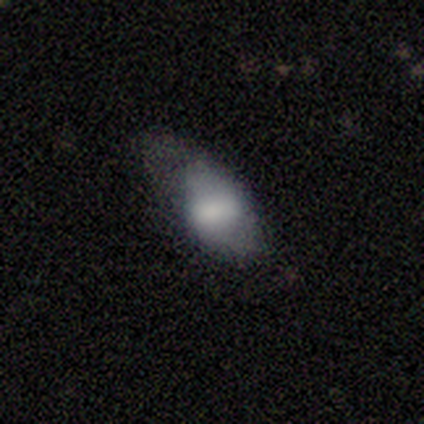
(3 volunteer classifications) A smooth galaxy with no disk features (100%) that is in between round and cigar-shaped (100%). Merging: minor disturbance (67%).